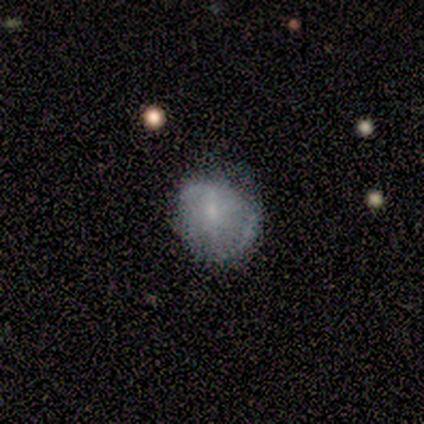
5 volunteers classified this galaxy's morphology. Q: Smooth or featured?
A: star or artifact (60%); runner-up: featured or disk (40%)